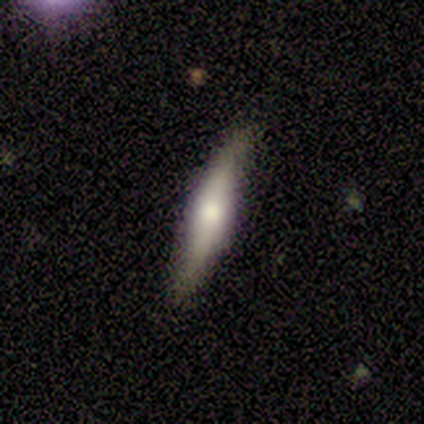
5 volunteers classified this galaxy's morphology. Smooth or featured?
  - smooth: 60% *
  - featured or disk: 20%
  - star or artifact: 20%
How rounded?
  - cigar-shaped: 100% *
  - round: 0%
  - in between: 0%
Merging?
  - none: 50% * (tied)
  - minor disturbance: 50% * (tied)
  - major disturbance: 0%
  - merger: 0%